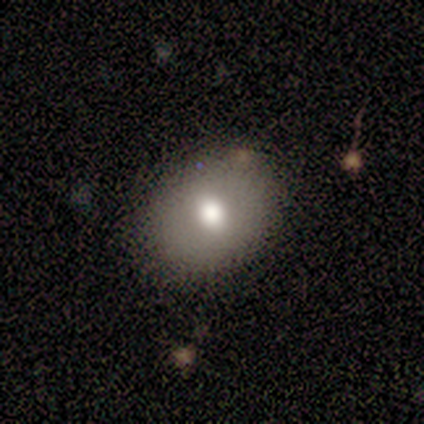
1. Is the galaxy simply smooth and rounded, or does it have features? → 67% smooth, 33% featured or disk, 0% star or artifact.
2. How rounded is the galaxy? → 75% in between, 25% round, 0% cigar-shaped.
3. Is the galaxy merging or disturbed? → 83% none, 17% minor disturbance, 0% major disturbance, 0% merger.